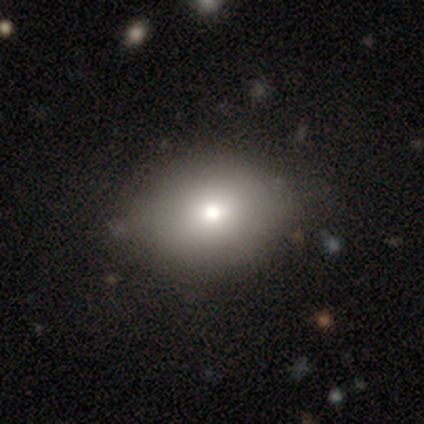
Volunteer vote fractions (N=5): smooth-or-featured: smooth: 60% | featured or disk: 40% | star or artifact: 0%
  how-rounded: in between: 100% | round: 0% | cigar-shaped: 0%
  merging: minor disturbance: 60% | none: 40% | major disturbance: 0% | merger: 0%